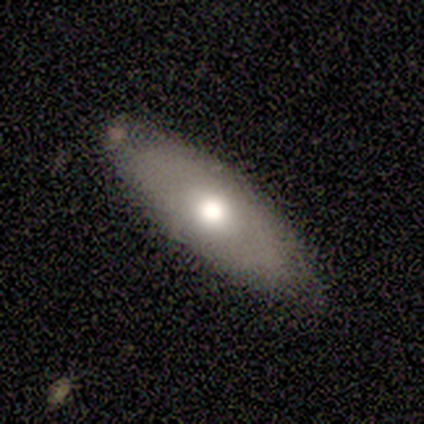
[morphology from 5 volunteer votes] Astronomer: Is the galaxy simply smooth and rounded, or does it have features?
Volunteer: smooth — 60% (runner-up: featured or disk, 40%).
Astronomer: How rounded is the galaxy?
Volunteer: in between — 67%.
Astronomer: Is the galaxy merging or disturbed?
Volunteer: none — 100%.